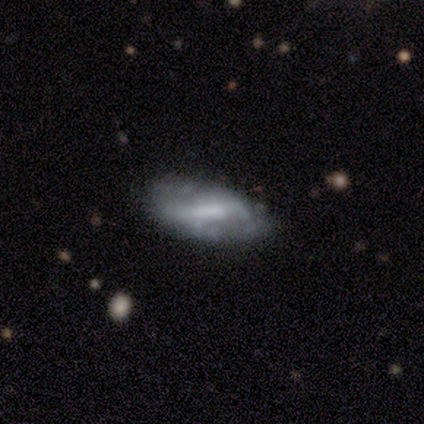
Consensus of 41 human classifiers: Smooth or featured? 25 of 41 (61%) said featured or disk. Edge-on disk? 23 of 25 (92%) said no. Bar? 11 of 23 (48%) said weak. Spiral arms? 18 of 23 (78%) said no. Bulge size? 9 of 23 (39%) said none. Merging? 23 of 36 (64%) said none.